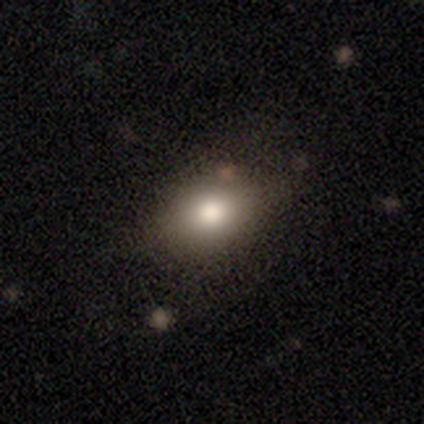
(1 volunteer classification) This is clearly a smooth galaxy (100%). How rounded: clearly in between (100%). Merging: clearly minor disturbance (100%).